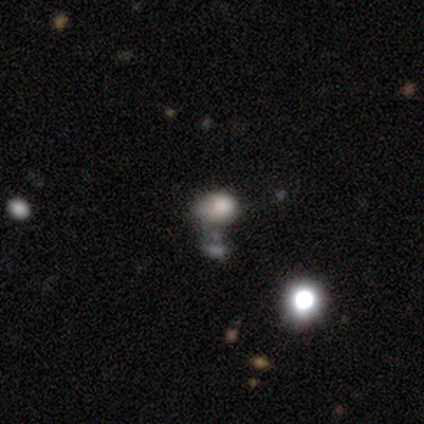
Volunteers were most divided on "smooth or featured" (2-way tie): smooth: 40%, featured or disk: 40%, star or artifact: 20%. More confident: how rounded — in between (100%); merging — minor disturbance (50%).